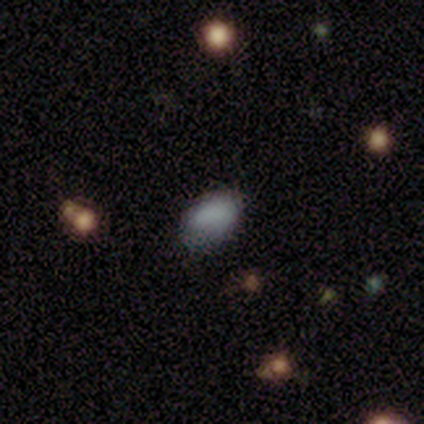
Smooth or featured? 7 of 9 (78%) said smooth. How rounded? 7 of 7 (100%) said in between. Merging? 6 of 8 (75%) said minor disturbance.